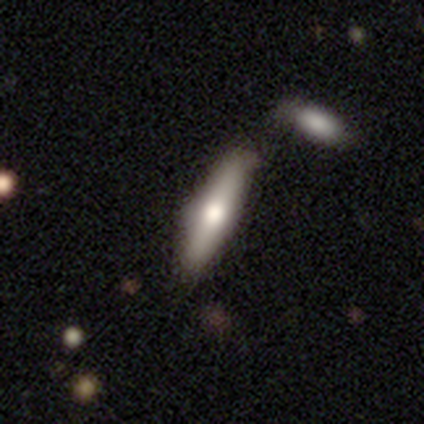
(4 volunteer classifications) A smooth galaxy with no disk features (50%, tied with featured or disk) that is cigar-shaped (100%).

Vote fractions:
- Smooth or featured? smooth: 50% (tied) / featured or disk: 50% (tied) / star or artifact: 0%
- How rounded? cigar-shaped: 100% / round: 0% / in between: 0%
- Merging? none: 75% / minor disturbance: 25% / major disturbance: 0% / merger: 0%